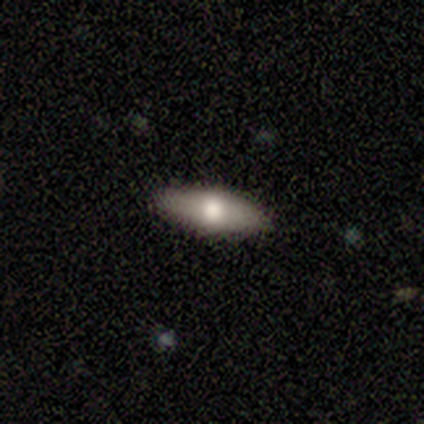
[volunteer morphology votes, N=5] This appears to be a smooth galaxy with no disk features (80%) that is cigar-shaped (75%). Merging: none (100%).